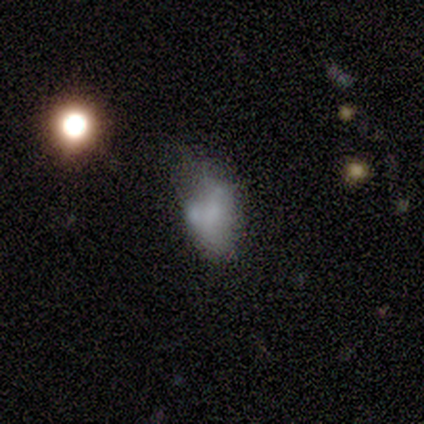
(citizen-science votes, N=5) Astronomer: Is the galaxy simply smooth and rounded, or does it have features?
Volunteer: smooth — 80%.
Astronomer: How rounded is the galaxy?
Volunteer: in between — 75%.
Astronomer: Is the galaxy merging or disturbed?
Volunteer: none — 60%.